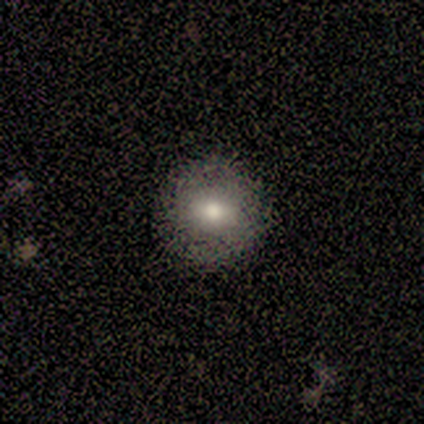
Morphology: type=smooth (67%); roundness=round (100%); merging=none (100%).